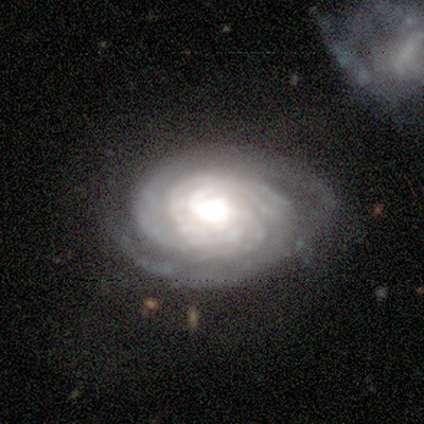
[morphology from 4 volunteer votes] featured or disk 75%, smooth 25%, star or artifact 0%. Down the decision tree: edge-on disk — no (100%); bar — no (67%); spiral arms — yes (100%); spiral arm count — 3 (67%); spiral winding — tight (67%); bulge size — moderate (67%); merging — none (75%).